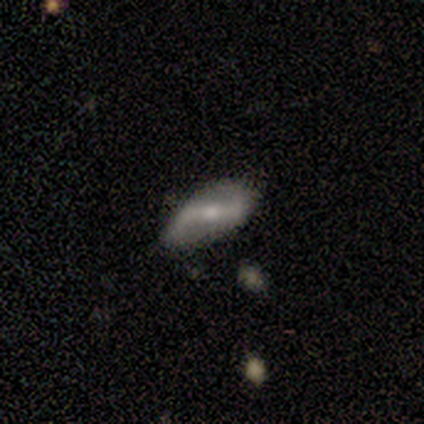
Smooth or featured? 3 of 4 (75%) said featured or disk. Edge-on disk? 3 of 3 (100%) said no. Bar? 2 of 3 (67%) said weak. Spiral arms? 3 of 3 (100%) said yes. Spiral winding? 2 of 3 (67%) said loose. Spiral arm count? 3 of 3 (100%) said 2. Bulge size? 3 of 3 (100%) said small. Merging? 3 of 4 (75%) said none.